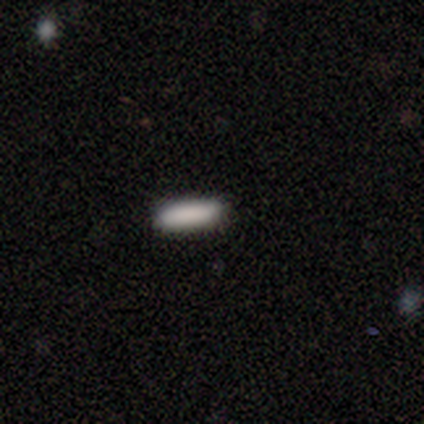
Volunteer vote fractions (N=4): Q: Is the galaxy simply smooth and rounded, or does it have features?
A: smooth — 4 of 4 (100%).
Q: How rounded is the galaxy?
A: cigar-shaped — 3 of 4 (75%).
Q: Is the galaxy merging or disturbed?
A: none — 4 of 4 (100%).